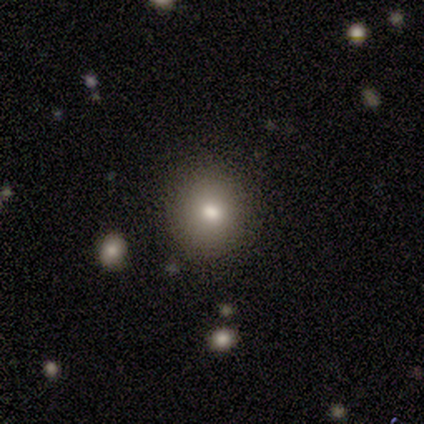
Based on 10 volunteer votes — This is likely a smooth galaxy (70%). How rounded: clearly round (86%). Merging: clearly none (86%).